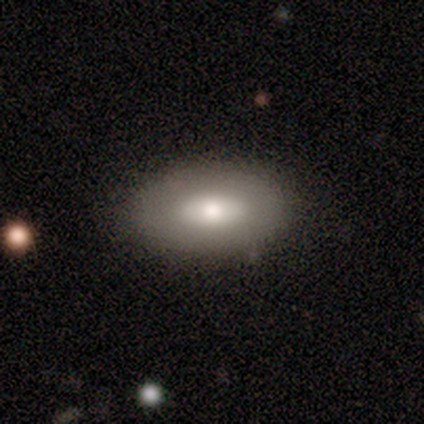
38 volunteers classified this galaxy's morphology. smooth-or-featured: smooth: 66% | featured or disk: 32% | star or artifact: 3%
  how-rounded: in between: 92% | round: 8% | cigar-shaped: 0%
  merging: none: 89% | minor disturbance: 5% | major disturbance: 3% | merger: 3%